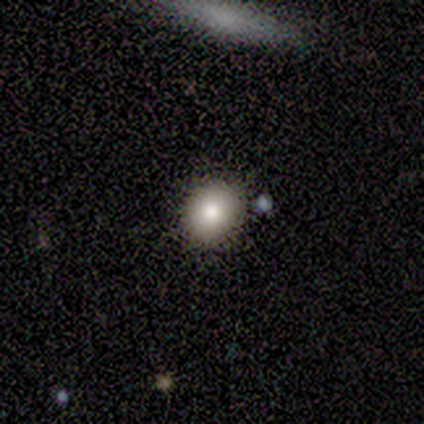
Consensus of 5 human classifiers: Smooth or featured?
  - smooth: 100% *
  - featured or disk: 0%
  - star or artifact: 0%
How rounded?
  - round: 100% *
  - in between: 0%
  - cigar-shaped: 0%
Merging?
  - none: 100% *
  - minor disturbance: 0%
  - major disturbance: 0%
  - merger: 0%